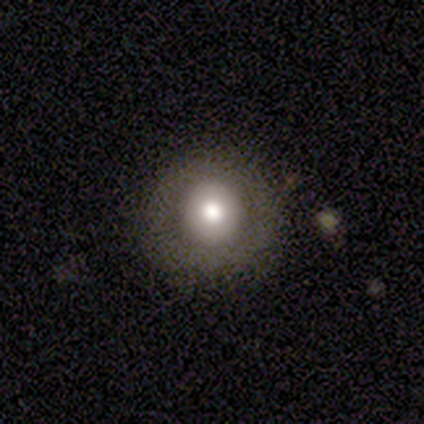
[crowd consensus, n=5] smooth-or-featured: smooth: 60% | featured or disk: 40% | star or artifact: 0%
  how-rounded: round: 67% | in between: 33% | cigar-shaped: 0%
  merging: none: 100% | minor disturbance: 0% | major disturbance: 0% | merger: 0%